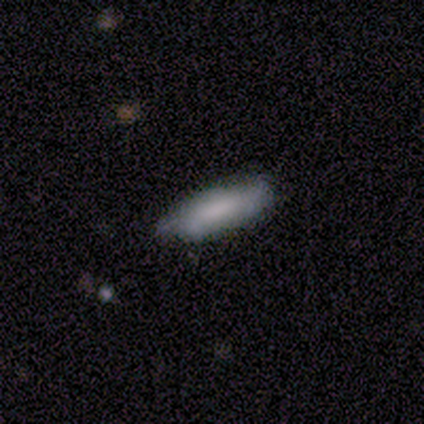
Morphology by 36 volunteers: A smooth galaxy with no disk features (83%) that is in between round and cigar-shaped (50%, tied with cigar-shaped). Merging: none (57%).